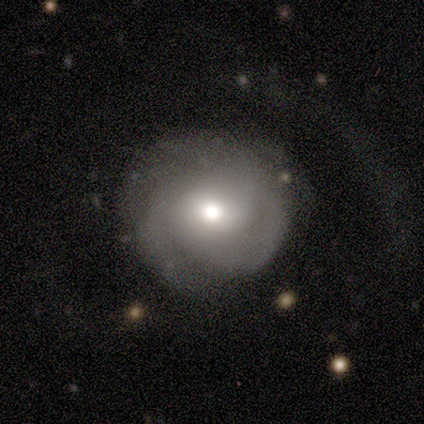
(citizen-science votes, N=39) Overall: featured or disk (79%). Edge-on disk: no (97%). Bar: no (73%). Spiral arms: yes (93%). Spiral arm count: 3 (39%; 2 36%). Spiral winding: tight (61%; medium 32%). Bulge size: moderate (57%; large 30%). Merging: none (57%; major disturbance 27%).